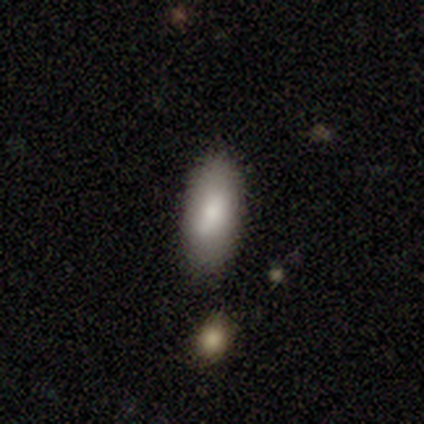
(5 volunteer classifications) Volunteers were most divided on "merging": none: 80%, minor disturbance: 20%, major disturbance: 0%, merger: 0%. More confident: smooth or featured — smooth (100%); how rounded — in between (100%).